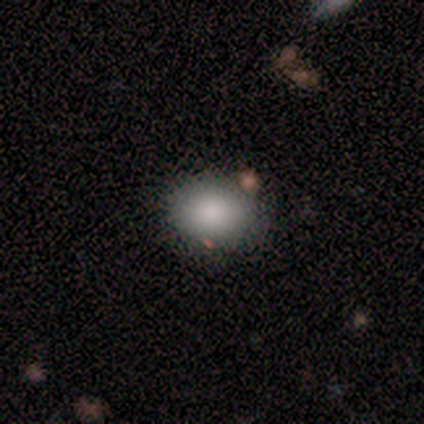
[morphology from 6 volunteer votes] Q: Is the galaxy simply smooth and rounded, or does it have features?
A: smooth — 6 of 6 (100%).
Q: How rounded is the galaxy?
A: in between — 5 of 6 (83%).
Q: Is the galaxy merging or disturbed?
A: none — 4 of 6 (67%).